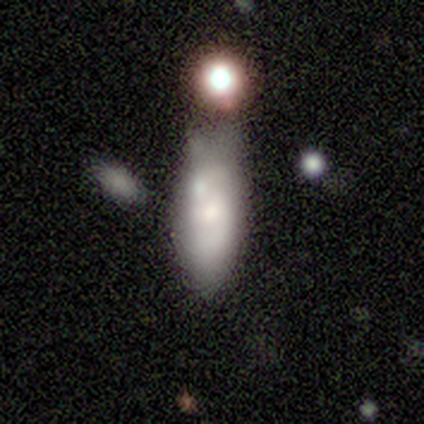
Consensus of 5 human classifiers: This appears to be a featured or disk galaxy (60%) with no bar (100%), no spiral arms (67%) and a small central bulge (67%). Merging: none (40%, tied with merger).